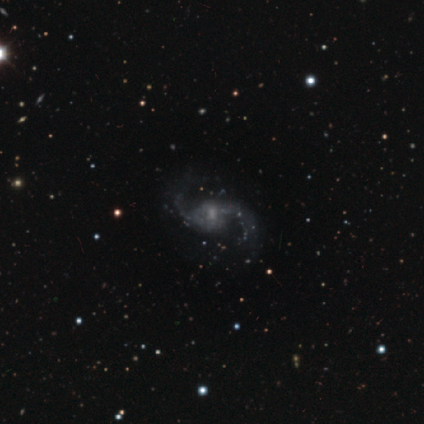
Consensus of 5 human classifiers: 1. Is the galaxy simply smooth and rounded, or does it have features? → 100% featured or disk, 0% smooth, 0% star or artifact.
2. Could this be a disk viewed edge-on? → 100% no, 0% yes.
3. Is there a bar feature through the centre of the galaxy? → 60% no, 40% weak, 0% strong.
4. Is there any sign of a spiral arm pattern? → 100% yes, 0% no.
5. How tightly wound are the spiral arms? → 60% loose, 40% medium, 0% tight.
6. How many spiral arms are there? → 100% 2, 0% 1, 0% 3, 0% 4, 0% more than 4, 0% can't tell.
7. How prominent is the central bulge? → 40% small, 20% large, 20% moderate, 20% none, 0% dominant.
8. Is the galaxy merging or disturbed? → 80% none, 20% major disturbance, 0% minor disturbance, 0% merger.